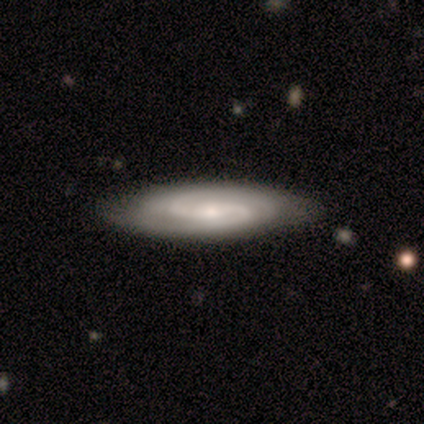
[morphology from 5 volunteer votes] This is clearly a featured or disk galaxy (80%). It is clearly not viewed edge-on (100%). Bar: possibly weak (50%). Spiral arm pattern: clearly yes (100%). Spiral arm count: likely 2 (75%). Spiral winding: possibly medium (50%). Central bulge: likely moderate (75%). Merging: clearly none (80%).